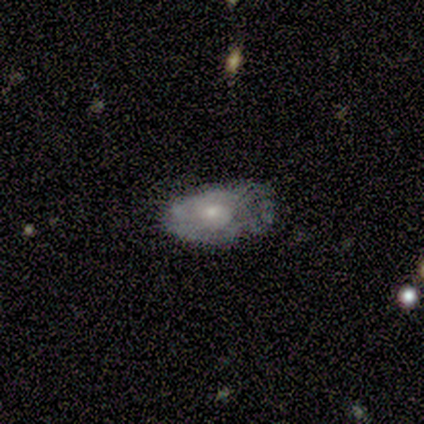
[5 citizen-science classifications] Morphology: type=featured or disk (80%); edge-on=no (100%); bar=no (100%); spiral arms=no (100%); bulge=moderate (50%, tied with small); merging=minor disturbance (60%).